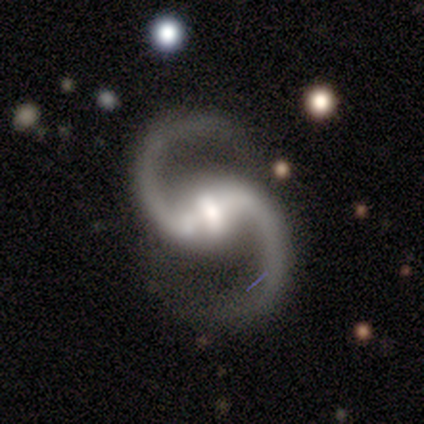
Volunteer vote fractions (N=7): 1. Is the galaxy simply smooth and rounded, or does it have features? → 86% featured or disk, 14% star or artifact, 0% smooth.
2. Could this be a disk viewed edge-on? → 100% no, 0% yes.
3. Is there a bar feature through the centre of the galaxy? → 67% strong, 33% weak, 0% no.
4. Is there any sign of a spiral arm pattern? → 100% yes, 0% no.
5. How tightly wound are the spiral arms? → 50% loose, 33% medium, 17% tight.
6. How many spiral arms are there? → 100% 2, 0% 1, 0% 3, 0% 4, 0% more than 4, 0% can't tell.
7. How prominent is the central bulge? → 67% small, 17% large, 17% moderate, 0% dominant, 0% none.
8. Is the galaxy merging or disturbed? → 83% none, 17% minor disturbance, 0% major disturbance, 0% merger.